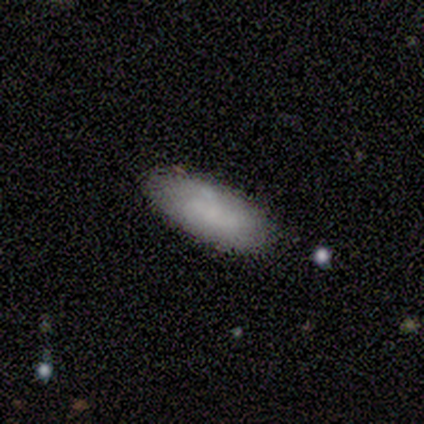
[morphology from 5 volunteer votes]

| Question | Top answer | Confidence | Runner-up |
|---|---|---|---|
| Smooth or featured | smooth | 60% | featured or disk (40%) |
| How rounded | in between | 67% | cigar-shaped (33%) |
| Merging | none | 100% | — |